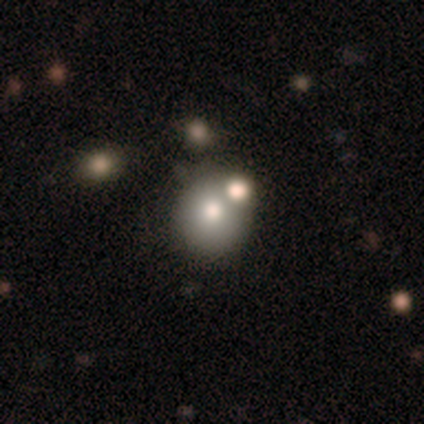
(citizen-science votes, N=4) Overall: smooth (75%). How rounded: round (100%). Merging: none (100%).